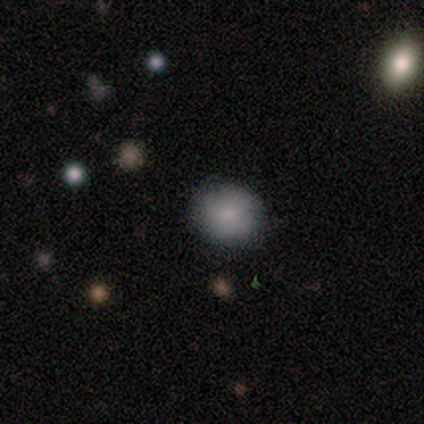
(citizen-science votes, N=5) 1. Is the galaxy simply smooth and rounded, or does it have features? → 80% smooth, 20% star or artifact, 0% featured or disk.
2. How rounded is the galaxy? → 100% round, 0% in between, 0% cigar-shaped.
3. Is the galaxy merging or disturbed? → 100% none, 0% minor disturbance, 0% major disturbance, 0% merger.